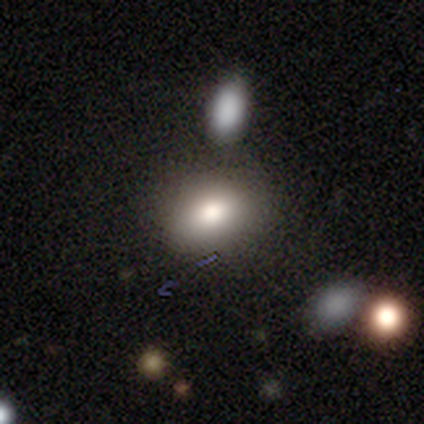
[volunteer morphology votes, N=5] type=smooth (100%); roundness=in between (80%); merging=none (80%).